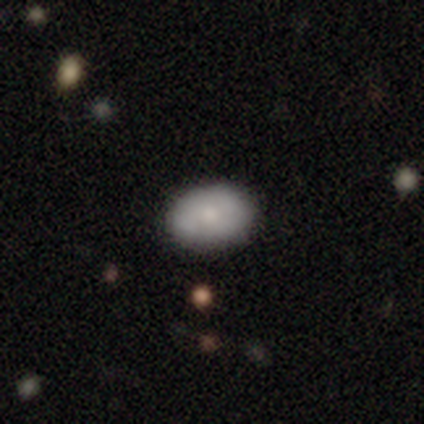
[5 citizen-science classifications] featured or disk 60%, smooth 40%, star or artifact 0%. Down the decision tree: edge-on disk — no (100%); bar — no (67%); spiral arms — no (100%); bulge size — small (67%); merging — none (80%).